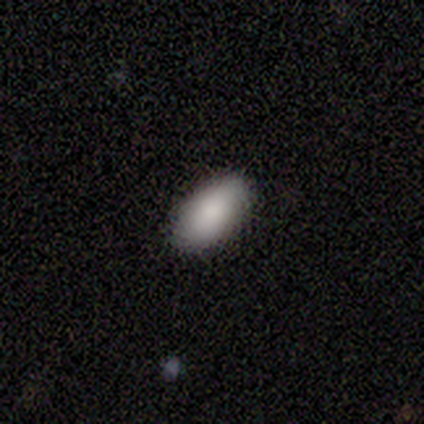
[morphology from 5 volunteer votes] Volunteers were most divided on "merging": none: 60%, minor disturbance: 40%, major disturbance: 0%, merger: 0%. More confident: smooth or featured — smooth (100%); how rounded — in between (100%).